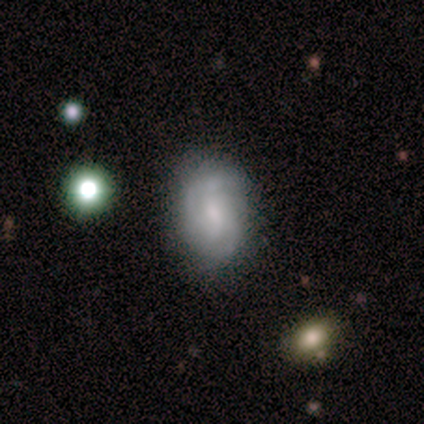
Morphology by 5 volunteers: This appears to be a featured or disk galaxy (60%) with no bar (67%), 3 (67%) medium (67%) spiral arms (100%) and a moderate central bulge (100%). Merging: none (80%).